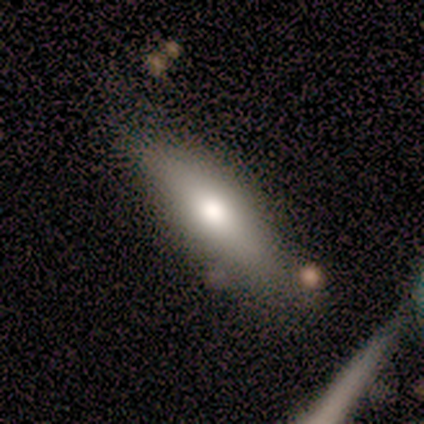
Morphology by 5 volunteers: Overall: smooth (40%, tied with star or artifact). How rounded: in between (100%). Merging: none (67%; minor disturbance 33%).